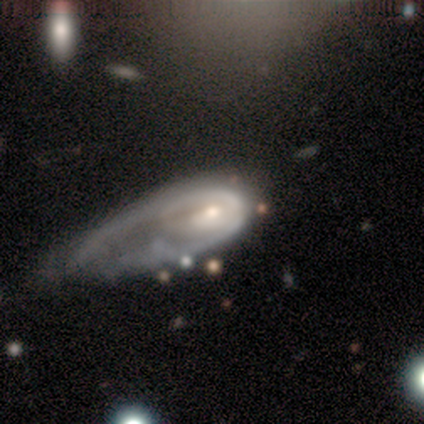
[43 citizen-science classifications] featured or disk 70%, smooth 21%, star or artifact 9%. Down the decision tree: edge-on disk — no (97%); bar — no (76%); spiral arms — no (52%); bulge size — moderate (69%); merging — major disturbance (54%).